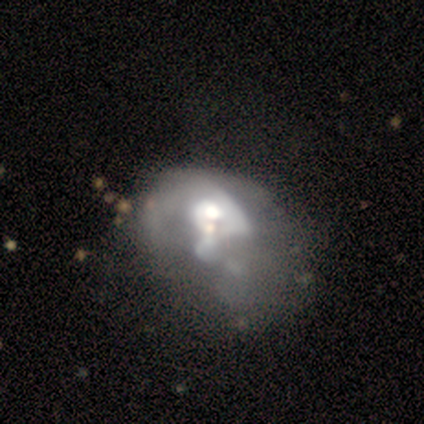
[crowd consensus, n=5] featured or disk 60%, smooth 40%, star or artifact 0%. Down the decision tree: edge-on disk — no (100%); bar — weak (100%); spiral arms — no (67%); bulge size — moderate (67%); merging — minor disturbance (40%, tied with major disturbance).